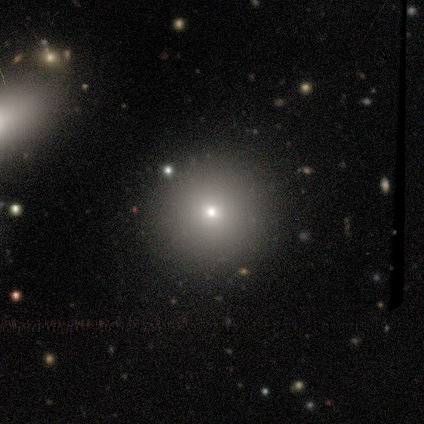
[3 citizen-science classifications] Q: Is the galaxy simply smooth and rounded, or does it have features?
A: smooth — 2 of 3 (67%).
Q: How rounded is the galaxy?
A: round — 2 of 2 (100%).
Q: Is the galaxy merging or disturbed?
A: none — 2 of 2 (100%).